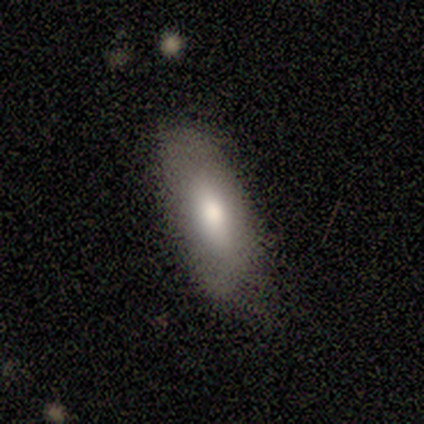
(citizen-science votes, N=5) Smooth or featured? smooth (80%)
How rounded? in between (75%)
Merging? none (80%)